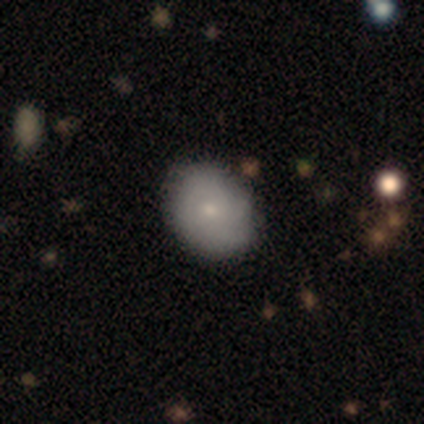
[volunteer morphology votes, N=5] featured or disk 60%, smooth 40%, star or artifact 0%. Down the decision tree: edge-on disk — no (100%); bar — no (100%); spiral arms — no (67%); bulge size — small (67%); merging — none (80%).